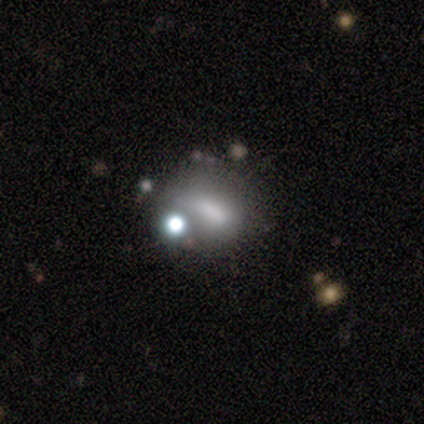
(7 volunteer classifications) Morphology: type=smooth (57%); roundness=in between (100%); merging=major disturbance (50%).